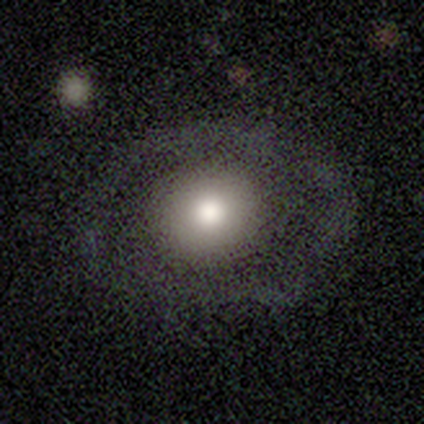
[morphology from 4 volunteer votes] This appears to be a smooth galaxy with no disk features (75%) that is round (67%). Merging: none (100%).